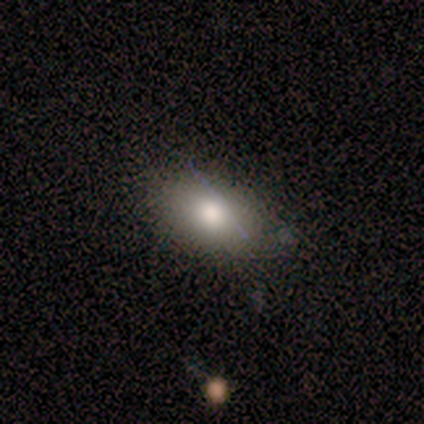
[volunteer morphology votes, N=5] Smooth or featured? 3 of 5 (60%) said smooth. How rounded? 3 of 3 (100%) said in between. Merging? 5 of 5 (100%) said none.